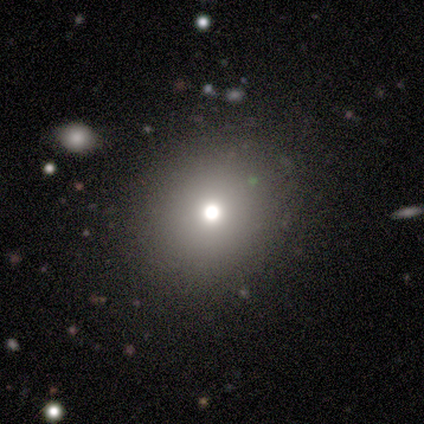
Consensus on every question: smooth or featured — smooth (100%); how rounded — round (100%); merging — none (100%).